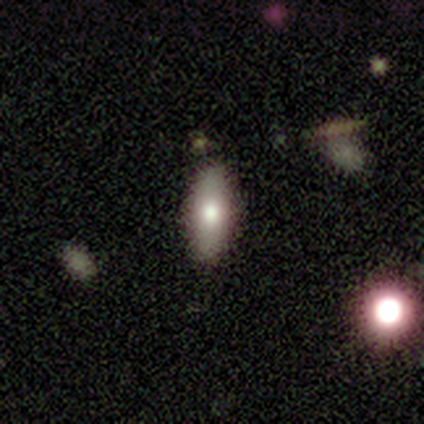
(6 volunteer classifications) Smooth or featured? 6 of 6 (100%) said smooth. How rounded? 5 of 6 (83%) said in between. Merging? 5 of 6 (83%) said none.